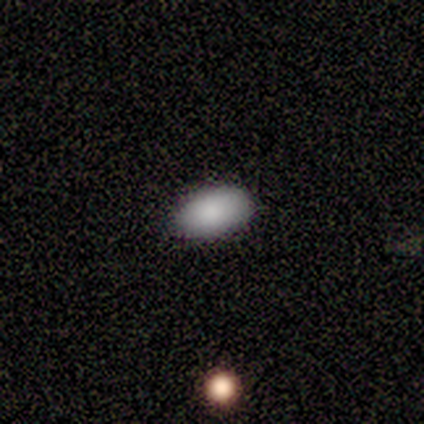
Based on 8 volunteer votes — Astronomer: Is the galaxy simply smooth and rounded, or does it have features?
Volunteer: smooth — 75%.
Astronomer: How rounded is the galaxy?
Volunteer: in between — 100%.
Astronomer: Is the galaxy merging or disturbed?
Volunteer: none — 100%.